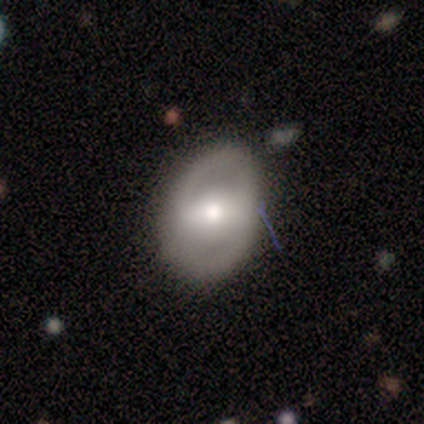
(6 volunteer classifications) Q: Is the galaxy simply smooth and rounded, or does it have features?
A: featured or disk — 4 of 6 (67%).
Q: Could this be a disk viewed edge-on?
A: no — 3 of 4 (75%).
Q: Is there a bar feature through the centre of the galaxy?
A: strong — 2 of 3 (67%).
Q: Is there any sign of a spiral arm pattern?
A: yes — 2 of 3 (67%).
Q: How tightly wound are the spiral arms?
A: tight — 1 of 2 (50%, tied with medium).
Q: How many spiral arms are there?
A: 2 — 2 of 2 (100%).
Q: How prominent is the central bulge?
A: moderate — 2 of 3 (67%).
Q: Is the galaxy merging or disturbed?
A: none — 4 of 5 (80%).